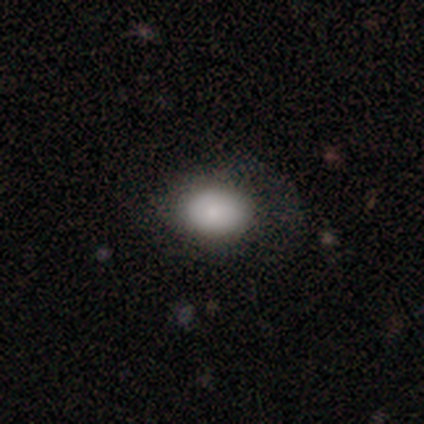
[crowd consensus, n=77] Smooth or featured: smooth — 87% (featured or disk — 13%)
How rounded: in between — 78% (round — 22%)
Merging: none — 34% (minor disturbance — 12%)